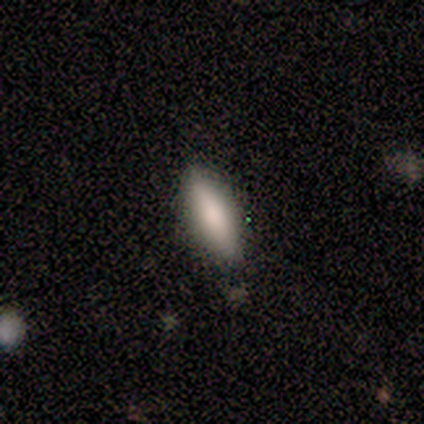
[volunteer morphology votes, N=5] Smooth or featured: smooth — 60% (featured or disk — 40%)
How rounded: cigar-shaped — 67% (in between — 33%)
Merging: none — 100%